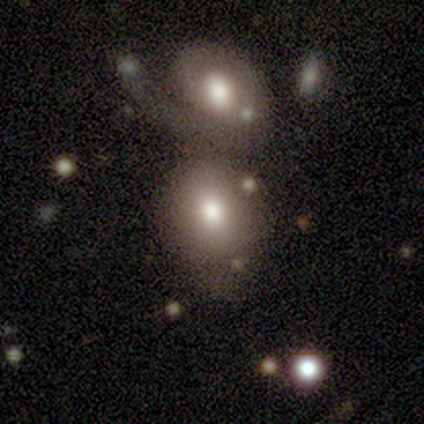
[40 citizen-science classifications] Overall: smooth (80%). How rounded: round (53%; in between 47%). Merging: merger (44%; none 21%).